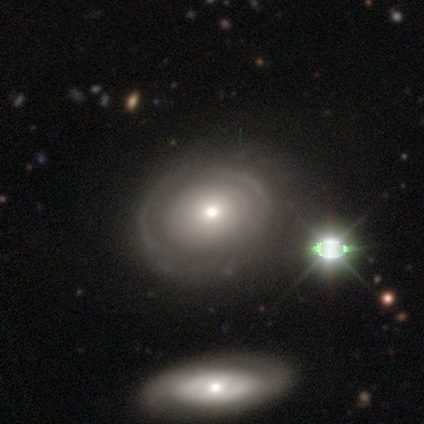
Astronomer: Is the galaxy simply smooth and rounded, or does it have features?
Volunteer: featured or disk — 100%.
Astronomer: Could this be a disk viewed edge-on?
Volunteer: no — 100%.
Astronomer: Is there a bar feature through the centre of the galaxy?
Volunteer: no — 88%.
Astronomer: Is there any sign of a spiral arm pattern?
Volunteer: no — 62%.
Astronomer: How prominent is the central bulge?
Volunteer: moderate — 50% (runner-up: small, 38%).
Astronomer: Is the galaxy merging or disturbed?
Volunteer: none — 100%.